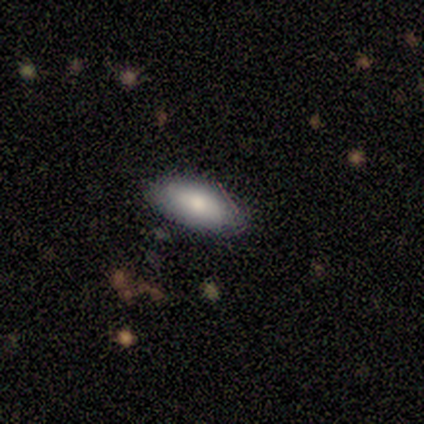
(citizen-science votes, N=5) Smooth or featured: smooth — 60% (featured or disk — 40%)
How rounded: in between — 67% (round — 33%)
Merging: none — 80% (minor disturbance — 20%)